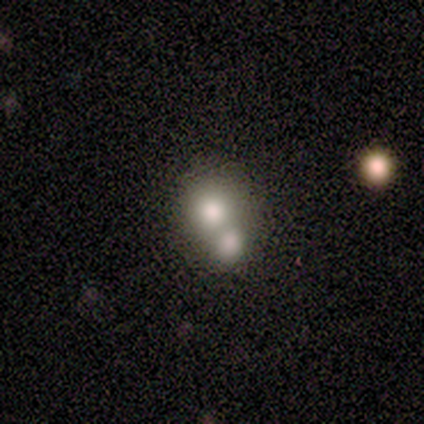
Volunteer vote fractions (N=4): This appears to be a smooth galaxy with no disk features (50%, tied with featured or disk) that is round (100%). Merging: merger (100%).